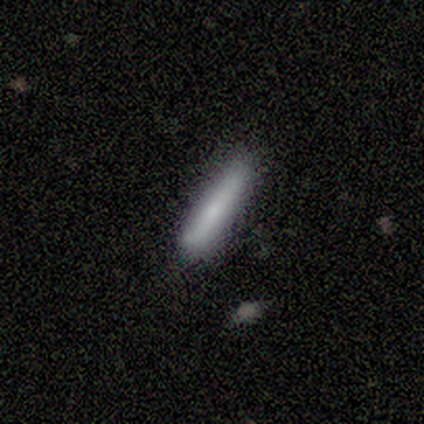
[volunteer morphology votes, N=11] This appears to be a smooth galaxy with no disk features (64%) that is cigar-shaped (71%). Merging: none (50%, tied with minor disturbance).